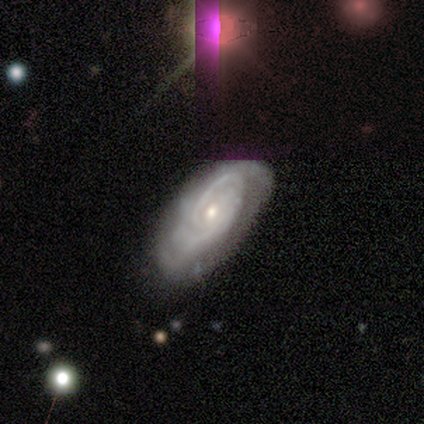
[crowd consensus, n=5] featured or disk 100%, smooth 0%, star or artifact 0%. Down the decision tree: edge-on disk — no (100%); bar — no (80%); spiral arms — yes (100%); spiral arm count — 2 (60%); spiral winding — tight (60%); bulge size — small (60%); merging — none (80%).